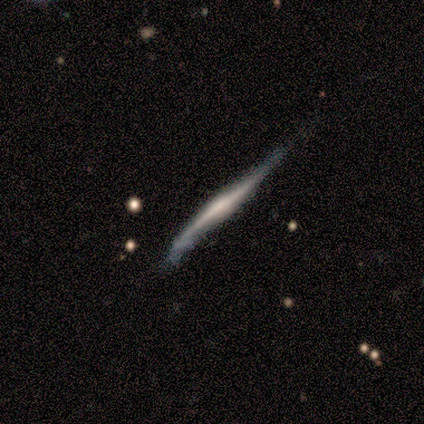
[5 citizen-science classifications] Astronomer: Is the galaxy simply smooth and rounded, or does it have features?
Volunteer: featured or disk — 80%.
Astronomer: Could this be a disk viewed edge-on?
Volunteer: yes — 100%.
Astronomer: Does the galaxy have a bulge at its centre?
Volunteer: rounded — 50%.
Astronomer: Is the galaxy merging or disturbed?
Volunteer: minor disturbance — 100%.